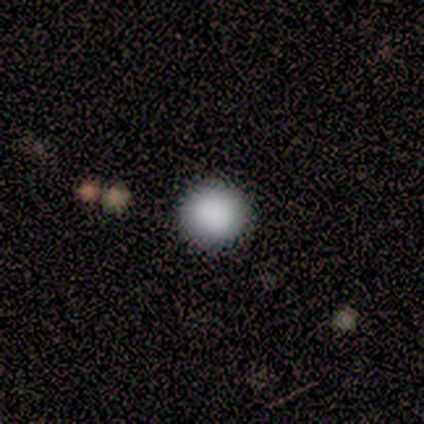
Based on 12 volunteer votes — This appears to be a smooth galaxy with no disk features (92%) that is round (100%). Merging: none (91%).